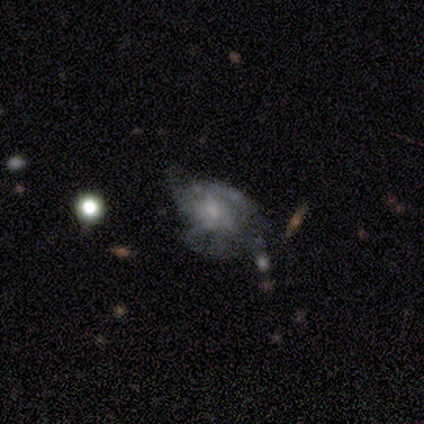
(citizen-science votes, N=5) Morphology: type=featured or disk (60%); edge-on=no (100%); bar=no (67%); spiral arms=no (100%); bulge=moderate (67%); merging=major disturbance (80%).